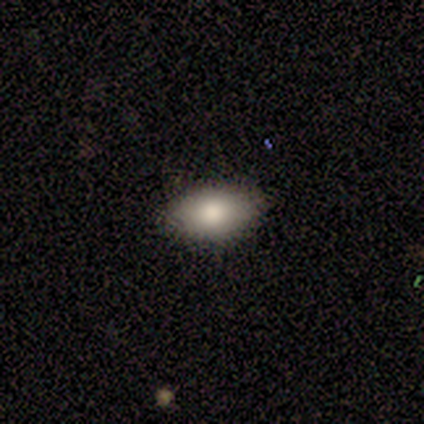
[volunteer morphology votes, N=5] Volunteers were most divided on "how rounded": in between: 75%, round: 25%, cigar-shaped: 0%. More confident: smooth or featured — smooth (80%); merging — none (80%).